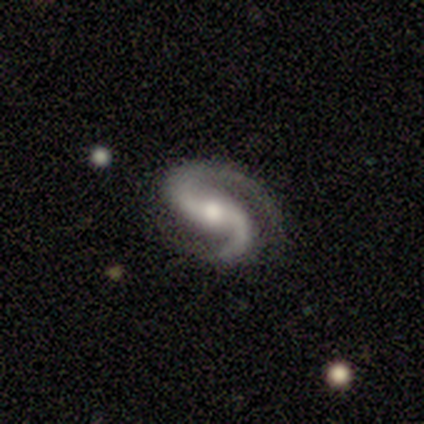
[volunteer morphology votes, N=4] smooth-or-featured: featured or disk: 100% | smooth: 0% | star or artifact: 0%
  disk-edge-on: no: 100% | yes: 0%
    bar: no: 50% | strong: 25% | weak: 25%
    has-spiral-arms: yes: 100% | no: 0%
      spiral-winding: tight: 75% | medium: 25% | loose: 0%
      spiral-arm-count: 2: 100% | 1: 0% | 3: 0% | 4: 0% | more than 4: 0% | can't tell: 0%
    bulge-size: moderate: 50% (tied) | small: 50% (tied) | dominant: 0% | large: 0% | none: 0%
  merging: none: 75% | minor disturbance: 25% | major disturbance: 0% | merger: 0%